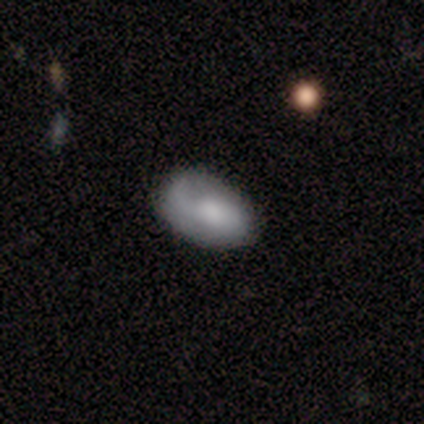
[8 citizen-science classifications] A featured or disk galaxy (75%) with no bar (67%), 1 (40%, tied with 2) loose (60%) spiral arms (83%) and a large central bulge (33%, tied with moderate).

Vote fractions:
- Smooth or featured? featured or disk: 75% / smooth: 25% / star or artifact: 0%
- Edge-on disk? no: 100% / yes: 0%
- Bar? no: 67% / weak: 33% / strong: 0%
- Spiral arms? yes: 83% / no: 17%
- Spiral winding? loose: 60% / medium: 40% / tight: 0%
- Spiral arm count? 1: 40% (tied) / 2: 40% (tied) / can't tell: 20% / 3: 0% / 4: 0% / more than 4: 0%
- Bulge size? large: 33% (tied) / moderate: 33% (tied) / small: 17% / none: 17% / dominant: 0%
- Merging? none: 75% / minor disturbance: 25% / major disturbance: 0% / merger: 0%